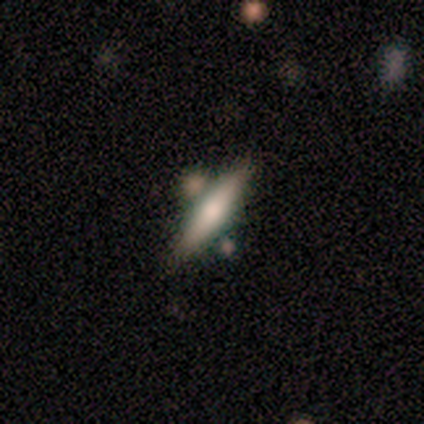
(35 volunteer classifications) smooth_or_featured: smooth (p=0.57) [alt: featured or disk p=0.37]
how_rounded: cigar-shaped (p=0.65) [alt: in between p=0.35]
merging: none (p=0.64) [alt: merger p=0.21]